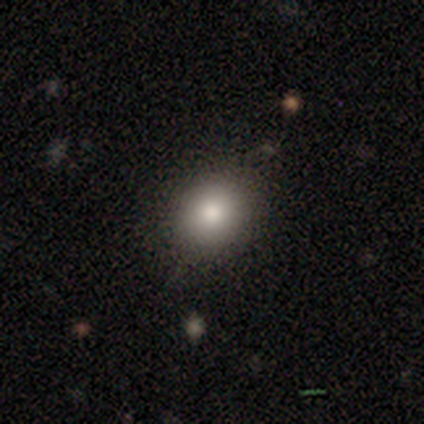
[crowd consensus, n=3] smooth_or_featured: smooth (p=1.00)
how_rounded: round (p=1.00)
merging: none (p=1.00)